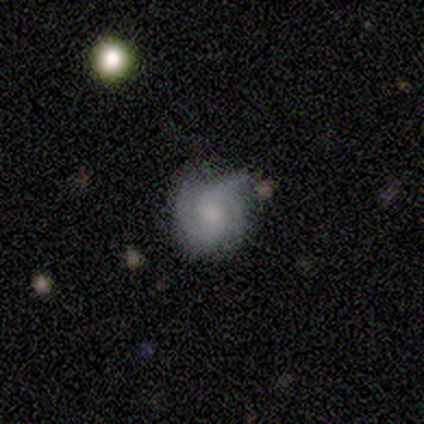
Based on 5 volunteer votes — This appears to be a featured or disk galaxy (80%) with no bar (75%), 2 (50%, tied with can't tell) loose (50%) spiral arms (100%) and a small central bulge (50%). Merging: none (80%).